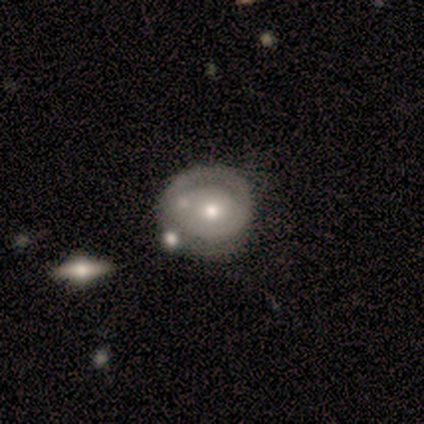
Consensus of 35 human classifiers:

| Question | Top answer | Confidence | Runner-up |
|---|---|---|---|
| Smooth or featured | featured or disk | 54% | smooth (37%) |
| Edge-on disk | no | 95% | yes (5%) |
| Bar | no | 72% | weak (22%) |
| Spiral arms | yes | 67% | no (33%) |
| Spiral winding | tight | 75% | medium (17%) |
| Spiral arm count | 1 | 50% | 2 (42%) |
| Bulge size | moderate | 50% | small (33%) |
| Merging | none | 69% | merger (12%) |